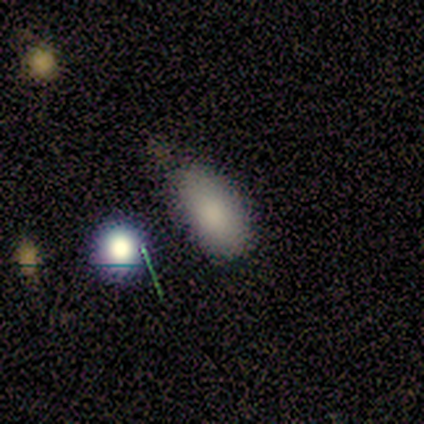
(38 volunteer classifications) smooth 82%, star or artifact 13%, featured or disk 5%. Down the decision tree: how rounded — in between (90%); merging — none (73%).